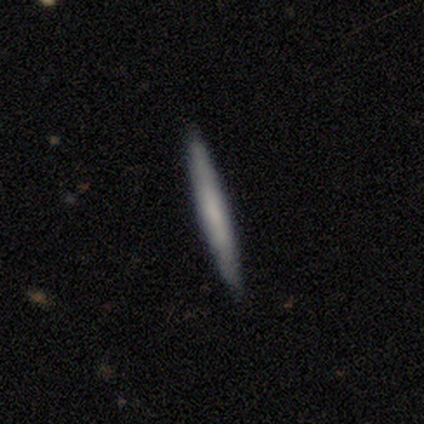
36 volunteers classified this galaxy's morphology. smooth_or_featured: smooth (p=0.61) [alt: featured or disk p=0.39]
how_rounded: cigar-shaped (p=1.00)
merging: none (p=0.86) [alt: minor disturbance p=0.11]